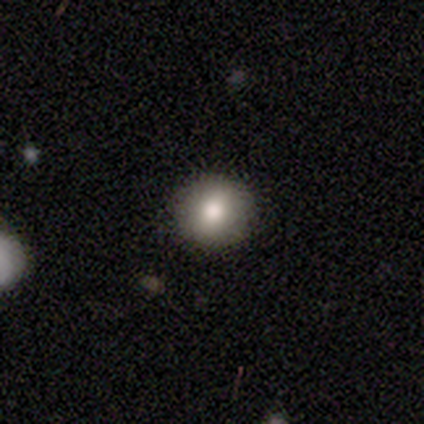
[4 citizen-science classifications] This appears to be a smooth galaxy with no disk features (100%) that is round (100%). Merging: none (100%).